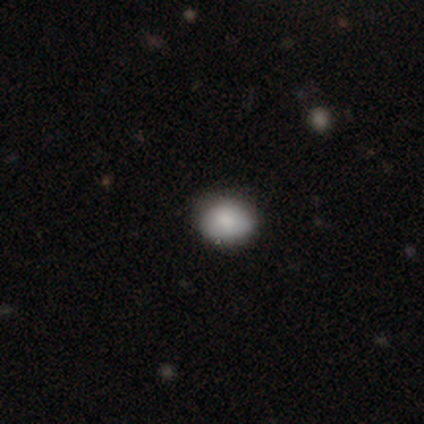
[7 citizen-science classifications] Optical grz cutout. It shows a smooth galaxy with no disk features (71%) that is round (60%). Merging: none (60%).